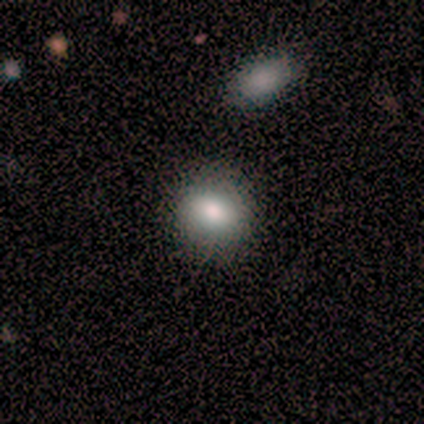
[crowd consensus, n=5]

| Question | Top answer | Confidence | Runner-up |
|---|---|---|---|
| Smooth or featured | smooth | 100% | — |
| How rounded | in between | 80% | round (20%) |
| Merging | none | 80% | minor disturbance (20%) |